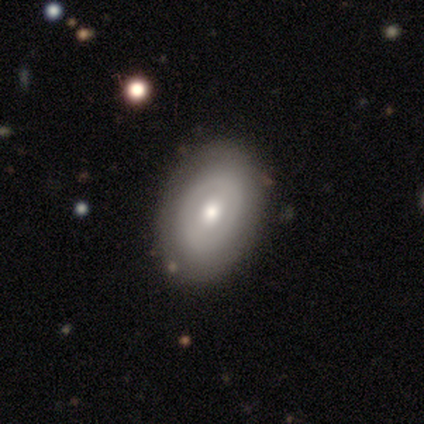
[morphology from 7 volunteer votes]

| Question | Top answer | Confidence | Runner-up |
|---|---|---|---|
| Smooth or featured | featured or disk | 71% | smooth (29%) |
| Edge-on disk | no | 100% | — |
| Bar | no | 60% | weak (40%) |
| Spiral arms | no | 80% | yes (20%) |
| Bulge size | moderate | 80% | small (20%) |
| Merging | none | 86% | minor disturbance (14%) |